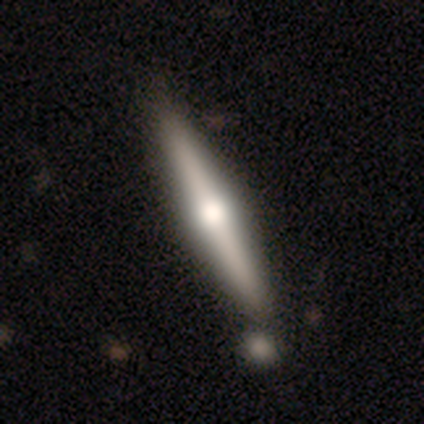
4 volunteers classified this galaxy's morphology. This appears to be a featured or disk galaxy (75%) viewed edge-on (100%) with a rounded central bulge (67%). Merging: none (100%).